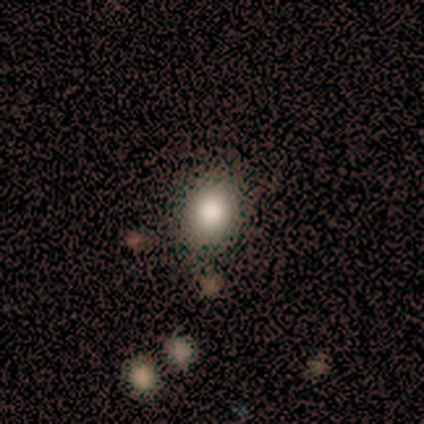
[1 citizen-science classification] smooth-or-featured: smooth: 100% | featured or disk: 0% | star or artifact: 0%
  how-rounded: in between: 100% | round: 0% | cigar-shaped: 0%
  merging: none: 100% | minor disturbance: 0% | major disturbance: 0% | merger: 0%